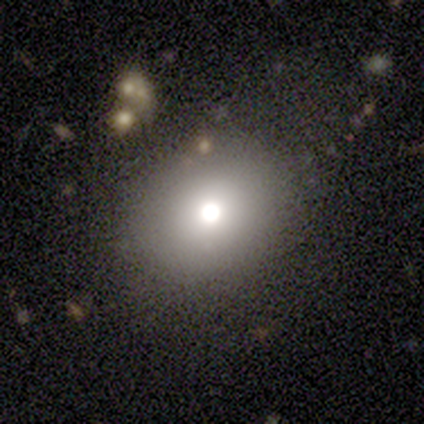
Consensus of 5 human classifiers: Smooth or featured?
  - smooth: 80% *
  - featured or disk: 20%
  - star or artifact: 0%
How rounded?
  - round: 50% * (tied)
  - in between: 50% * (tied)
  - cigar-shaped: 0%
Merging?
  - none: 80% *
  - minor disturbance: 20%
  - major disturbance: 0%
  - merger: 0%